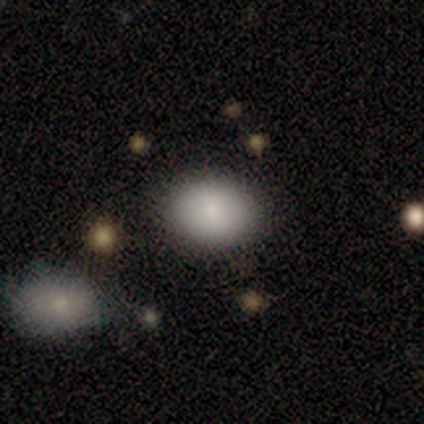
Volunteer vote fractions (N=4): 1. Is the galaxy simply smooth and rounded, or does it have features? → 100% smooth, 0% featured or disk, 0% star or artifact.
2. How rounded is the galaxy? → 50% round (tied), 50% in between (tied), 0% cigar-shaped.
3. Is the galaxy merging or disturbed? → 100% none, 0% minor disturbance, 0% major disturbance, 0% merger.